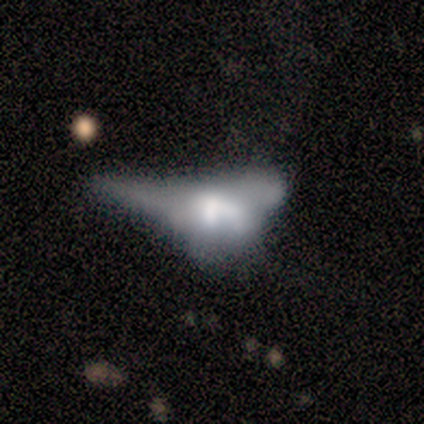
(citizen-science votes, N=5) Smooth or featured: featured or disk — 80% (star or artifact — 20%)
Edge-on disk: no — 100%
Bar: no — 100%
Spiral arms: no — 100%
Bulge size: none — 75% (large — 25%)
Merging: none — 50% (tied with major disturbance — 50%)